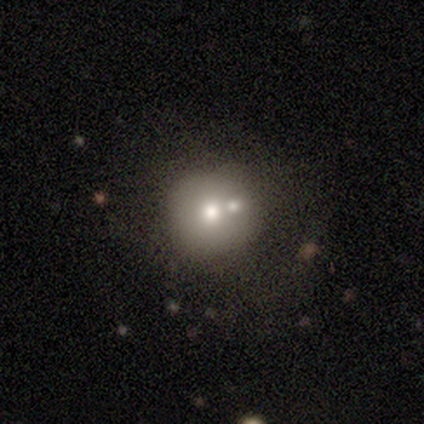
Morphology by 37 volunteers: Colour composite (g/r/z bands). It shows a smooth galaxy with no disk features (57%) that is round (90%). Merging: merger (48%).